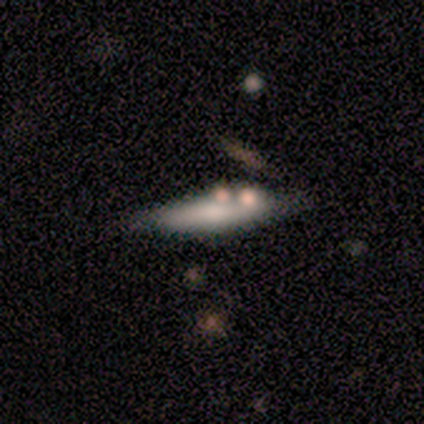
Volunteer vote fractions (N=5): smooth-or-featured: smooth: 40% (tied) | featured or disk: 40% (tied) | star or artifact: 20%
  how-rounded: cigar-shaped: 100% | round: 0% | in between: 0%
  merging: none: 100% | minor disturbance: 0% | major disturbance: 0% | merger: 0%